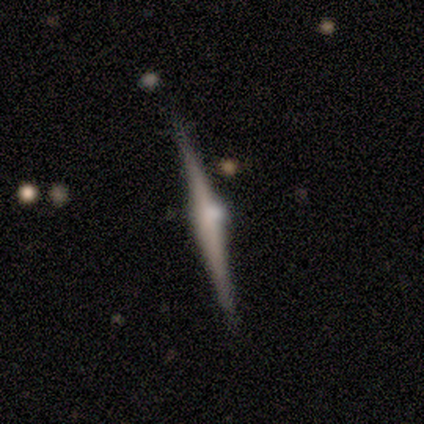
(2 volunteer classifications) Q: Smooth or featured?
A: featured or disk (100%)
Q: Edge-on disk?
A: yes (100%)
Q: Edge-on bulge?
A: rounded (100%)
Q: Merging?
A: none (100%)